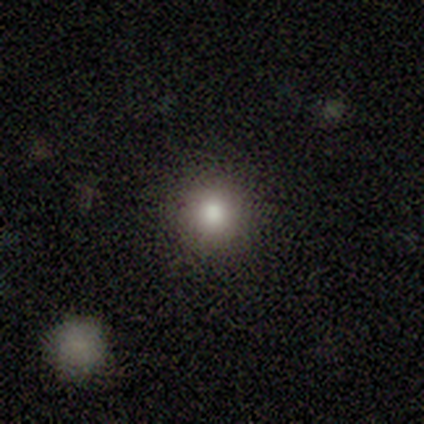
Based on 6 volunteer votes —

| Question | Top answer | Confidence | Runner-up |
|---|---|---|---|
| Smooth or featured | smooth | 100% | — |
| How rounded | round | 100% | — |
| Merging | none | 83% | minor disturbance (17%) |